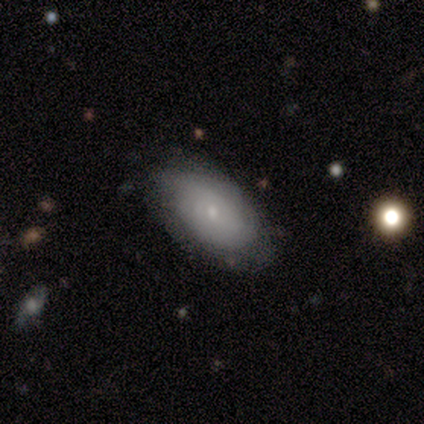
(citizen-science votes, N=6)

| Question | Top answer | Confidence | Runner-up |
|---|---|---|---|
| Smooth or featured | smooth | 50% | featured or disk (33%) |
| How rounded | in between | 100% | — |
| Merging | none | 80% | minor disturbance (20%) |